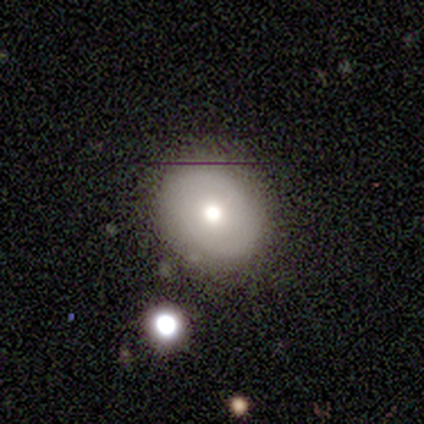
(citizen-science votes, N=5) This appears to be a smooth galaxy with no disk features (60%) that is round (100%). Merging: none (100%).